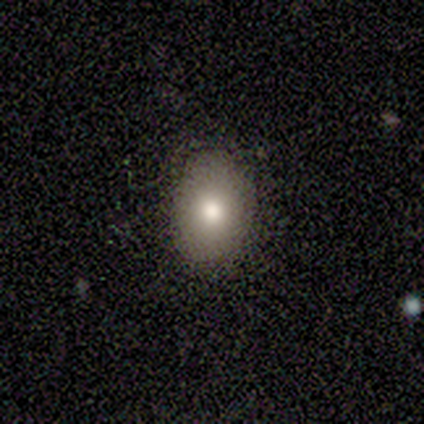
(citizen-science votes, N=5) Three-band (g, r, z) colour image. It shows a smooth galaxy with no disk features (80%) that is in between round and cigar-shaped (100%). Merging: none (75%).